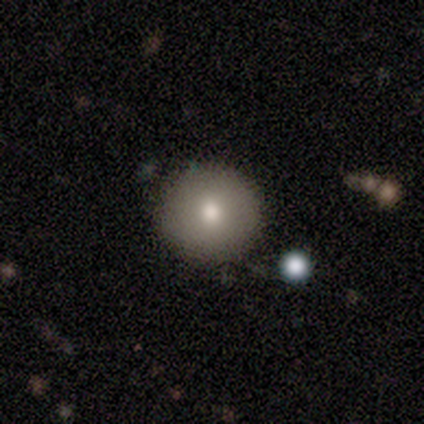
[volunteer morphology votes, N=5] This appears to be a smooth galaxy with no disk features (100%) that is round (100%). Merging: none (80%).